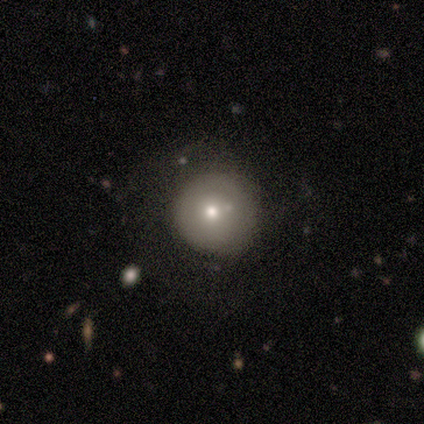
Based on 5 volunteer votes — smooth_or_featured: smooth (p=0.40) [tied with: featured or disk p=0.40]
how_rounded: round (p=1.00)
merging: none (p=0.50) [alt: minor disturbance p=0.25]